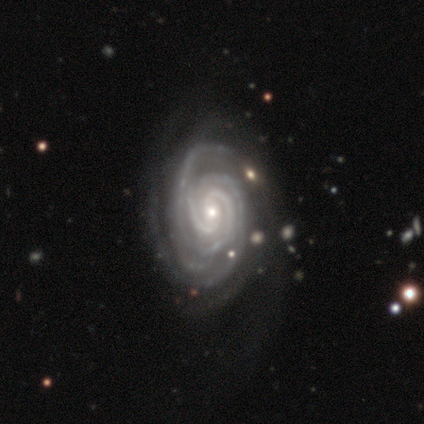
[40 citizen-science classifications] This appears to be a featured or disk galaxy (100%) with no bar (80%), 3 (40%) tight (82%) spiral arms (100%) and a small central bulge (50%). Merging: none (42%).